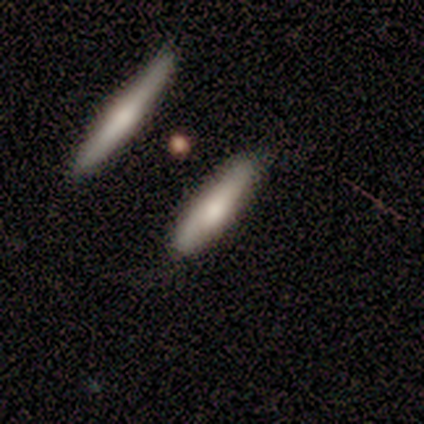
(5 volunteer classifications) A smooth galaxy with no disk features (80%) that is cigar-shaped (75%). Merging: none (80%).